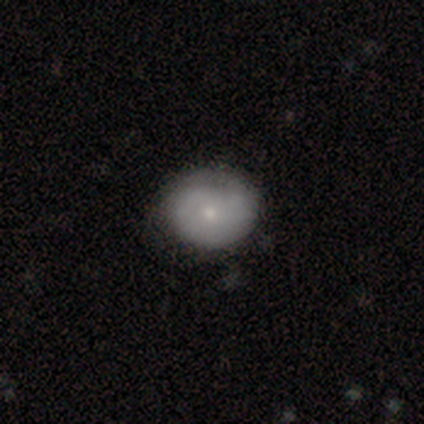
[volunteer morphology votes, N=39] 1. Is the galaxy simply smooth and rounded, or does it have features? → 54% smooth, 46% featured or disk, 0% star or artifact.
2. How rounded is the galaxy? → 76% round, 24% in between, 0% cigar-shaped.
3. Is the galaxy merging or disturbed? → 54% none, 15% minor disturbance, 5% major disturbance, 0% merger.